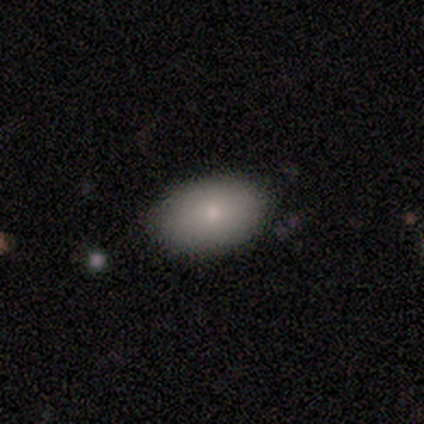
Overall: smooth (100%). How rounded: in between (80%). Merging: none (100%).